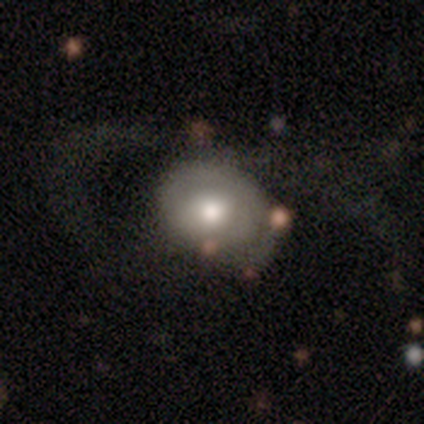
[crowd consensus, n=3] This appears to be a featured or disk galaxy (67%) with a weak bar (50%, tied with no), 2 (100%) loose (100%) spiral arms (50%, tied with no) and a moderate central bulge (100%). Merging: none (100%).